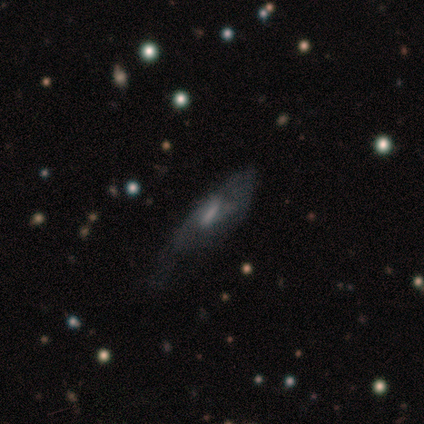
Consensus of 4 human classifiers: smooth_or_featured: featured or disk (p=0.75) [alt: smooth p=0.25]
disk_edge_on: yes (p=0.67) [alt: no p=0.33]
edge_on_bulge: rounded (p=1.00)
merging: none (p=1.00)